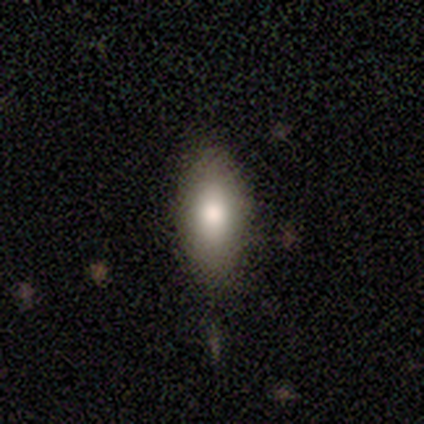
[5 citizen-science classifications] smooth-or-featured: smooth: 60% | featured or disk: 40% | star or artifact: 0%
  how-rounded: in between: 67% | round: 33% | cigar-shaped: 0%
  merging: none: 100% | minor disturbance: 0% | major disturbance: 0% | merger: 0%